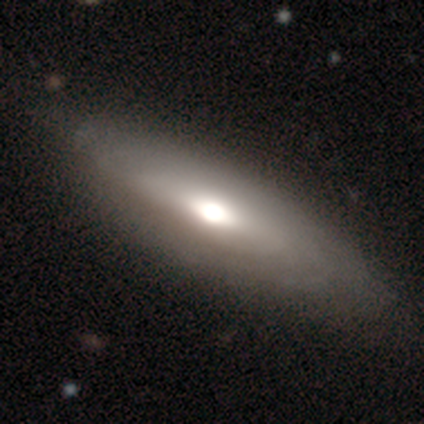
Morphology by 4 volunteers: smooth 50% (tied), featured or disk 50% (tied), star or artifact 0%. Down the decision tree: how rounded — cigar-shaped (100%); merging — none (75%).